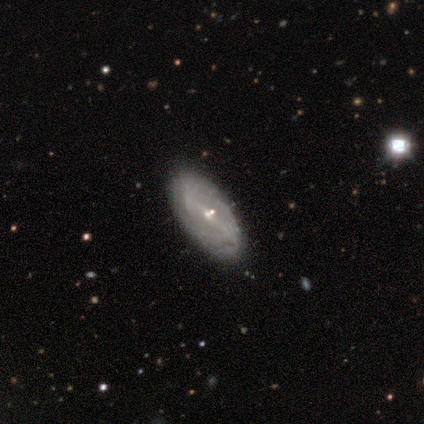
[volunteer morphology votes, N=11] featured or disk 91%, smooth 9%, star or artifact 0%. Down the decision tree: edge-on disk — no (80%); bar — strong (50%); spiral arms — yes (62%); spiral arm count — 2 (60%); spiral winding — tight (40%, tied with loose); bulge size — small (100%); merging — none (100%).